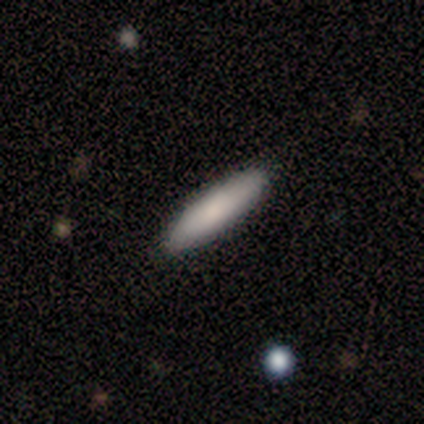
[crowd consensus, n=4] A smooth galaxy with no disk features (50%, tied with featured or disk) that is in between round and cigar-shaped (50%, tied with cigar-shaped).

Vote fractions:
- Smooth or featured? smooth: 50% (tied) / featured or disk: 50% (tied) / star or artifact: 0%
- How rounded? in between: 50% (tied) / cigar-shaped: 50% (tied) / round: 0%
- Merging? none: 100% / minor disturbance: 0% / major disturbance: 0% / merger: 0%